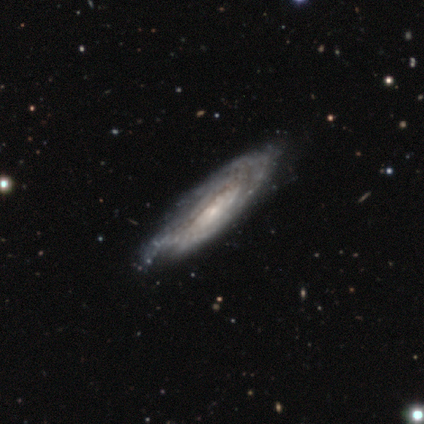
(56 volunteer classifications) Smooth or featured?
  - featured or disk: 84% *
  - star or artifact: 9%
  - smooth: 7%
Edge-on disk?
  - no: 72% *
  - yes: 28%
Bar?
  - no: 85% *
  - weak: 9%
  - strong: 6%
Spiral arms?
  - yes: 88% *
  - no: 12%
Spiral winding?
  - tight: 70% *
  - medium: 23%
  - loose: 7%
Spiral arm count?
  - can't tell: 80% *
  - 3: 7%
  - more than 4: 7%
  - 2: 3%
  - 4: 3%
  - 1: 0%
Bulge size?
  - small: 76% *
  - moderate: 12%
  - none: 9%
  - large: 3%
  - dominant: 0%
Merging?
  - none: 53% *
  - minor disturbance: 41%
  - major disturbance: 6%
  - merger: 0%